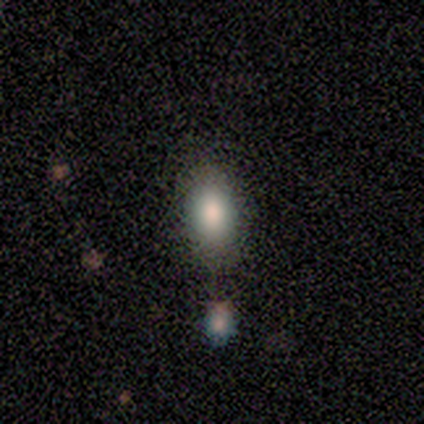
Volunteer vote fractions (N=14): Smooth or featured: smooth — 79% (star or artifact — 14%)
How rounded: in between — 82% (round — 9%)
Merging: none — 58% (major disturbance — 17%)